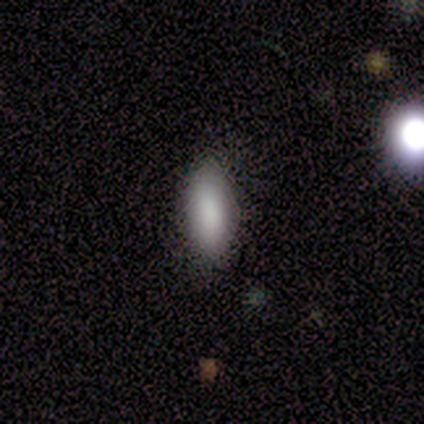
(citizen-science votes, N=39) A smooth galaxy with no disk features (92%) that is in between round and cigar-shaped (83%).

Vote fractions:
- Smooth or featured? smooth: 92% / featured or disk: 5% / star or artifact: 3%
- How rounded? in between: 83% / cigar-shaped: 17% / round: 0%
- Merging? none: 95% / minor disturbance: 5% / major disturbance: 0% / merger: 0%